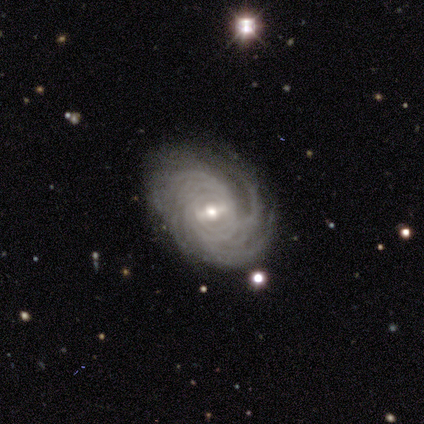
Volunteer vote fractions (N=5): Smooth or featured: featured or disk — 100%
Edge-on disk: no — 100%
Bar: strong — 80% (no — 20%)
Spiral arms: yes — 100%
Spiral winding: medium — 60% (tight — 40%)
Spiral arm count: more than 4 — 40% (3 — 20%)
Bulge size: small — 60% (moderate — 40%)
Merging: none — 40% (tied with major disturbance — 40%)